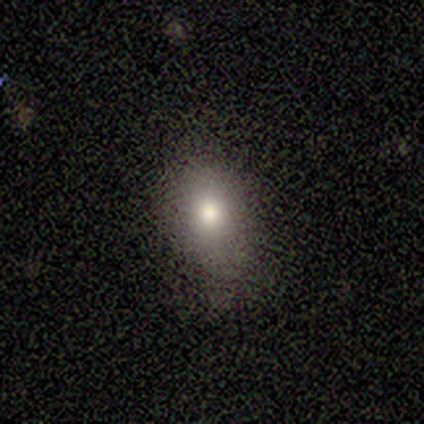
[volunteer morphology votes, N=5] Smooth or featured? 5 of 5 (100%) said smooth. How rounded? 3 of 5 (60%) said in between. Merging? 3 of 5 (60%) said none.